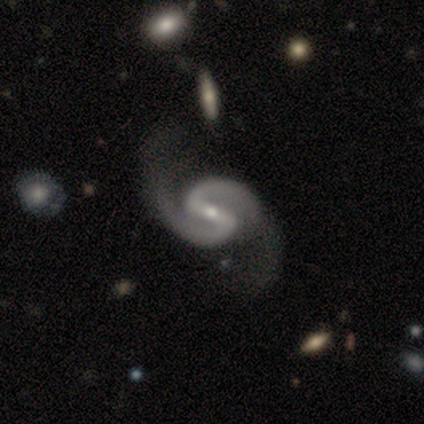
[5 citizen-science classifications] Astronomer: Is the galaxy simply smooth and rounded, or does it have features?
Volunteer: featured or disk — 80%.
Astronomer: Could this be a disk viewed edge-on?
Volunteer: no — 100%.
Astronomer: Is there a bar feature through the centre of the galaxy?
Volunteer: strong — 75%.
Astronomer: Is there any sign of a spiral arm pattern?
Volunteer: yes — 100%.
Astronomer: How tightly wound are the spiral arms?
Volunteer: tight — 50%.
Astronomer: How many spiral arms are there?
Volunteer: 2 — 100%.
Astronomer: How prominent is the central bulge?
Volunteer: small — 75%.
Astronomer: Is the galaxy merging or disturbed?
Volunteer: none — 25%, tied with minor disturbance, major disturbance and merger at 25%.